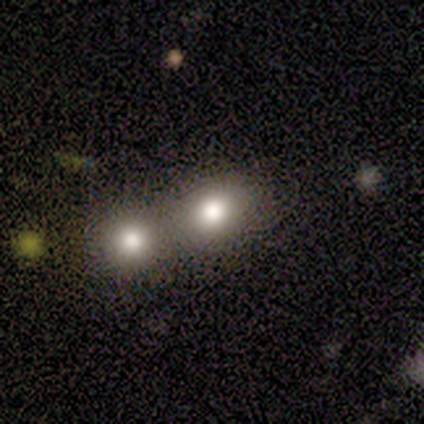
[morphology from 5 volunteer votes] smooth_or_featured: smooth (p=1.00)
how_rounded: round (p=0.60) [alt: in between p=0.40]
merging: merger (p=0.60) [alt: none p=0.40]